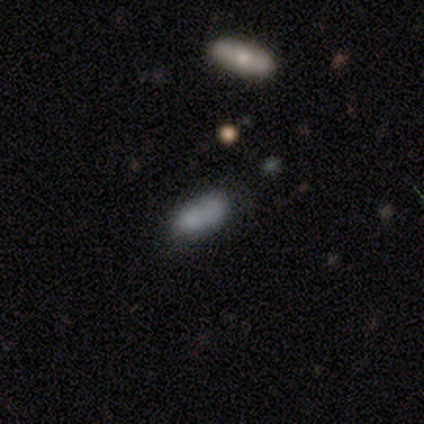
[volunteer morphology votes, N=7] smooth_or_featured: smooth (p=0.86) [alt: star or artifact p=0.14]
how_rounded: in between (p=0.83) [alt: cigar-shaped p=0.17]
merging: none (p=0.83) [alt: merger p=0.17]